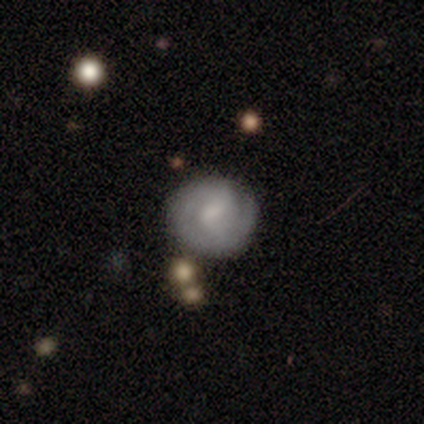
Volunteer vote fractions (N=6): smooth_or_featured: smooth (p=0.67) [alt: star or artifact p=0.33]
how_rounded: round (p=1.00)
merging: none (p=0.50) [alt: minor disturbance p=0.25]